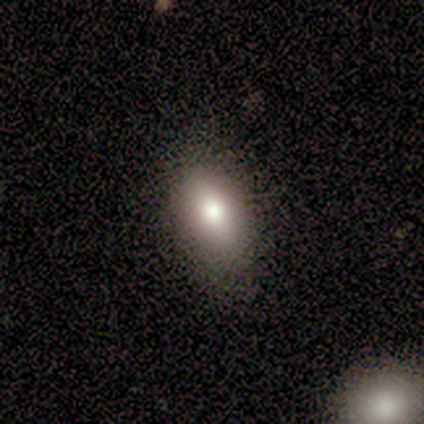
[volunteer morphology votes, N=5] This appears to be a smooth galaxy with no disk features (80%) that is in between round and cigar-shaped (75%). Merging: none (100%).